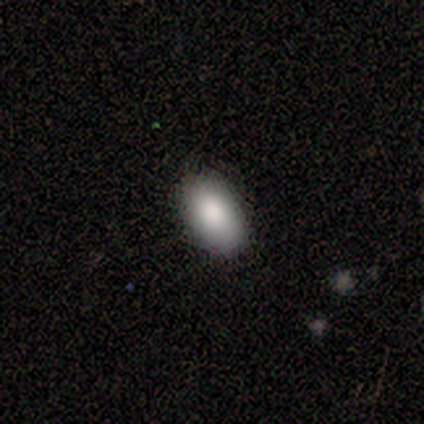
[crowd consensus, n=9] Overall: smooth (100%). How rounded: in between (100%). Merging: none (100%).